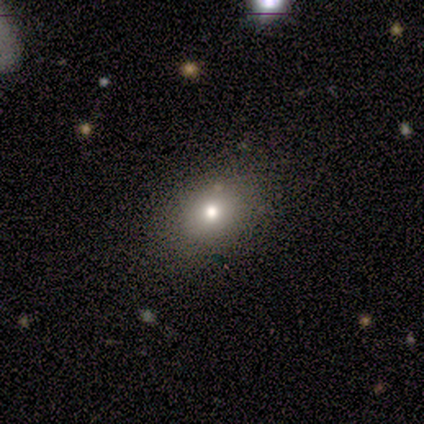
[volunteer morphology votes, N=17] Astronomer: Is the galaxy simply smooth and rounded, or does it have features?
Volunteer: smooth — 82%.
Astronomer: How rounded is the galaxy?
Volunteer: in between — 79%.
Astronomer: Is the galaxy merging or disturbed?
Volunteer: none — 81%.